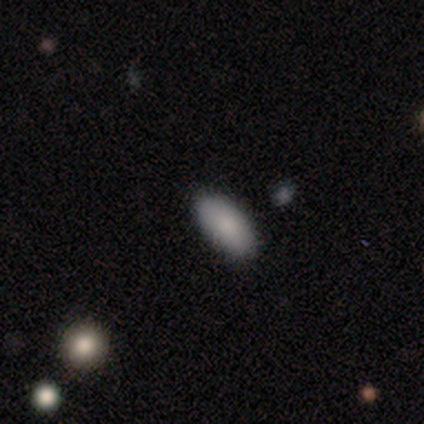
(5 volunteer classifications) Smooth or featured? smooth (80%)
How rounded? in between (100%)
Merging? none (100%)